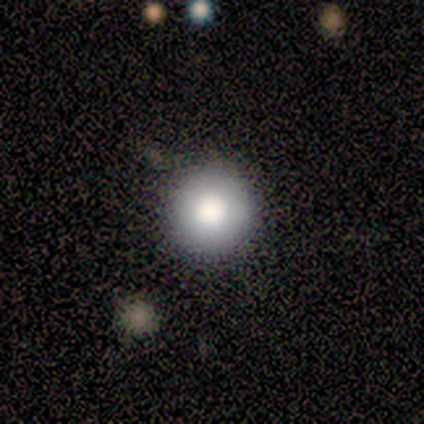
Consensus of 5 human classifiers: This is clearly a smooth galaxy (80%). How rounded: clearly round (100%). Merging: clearly none (100%).